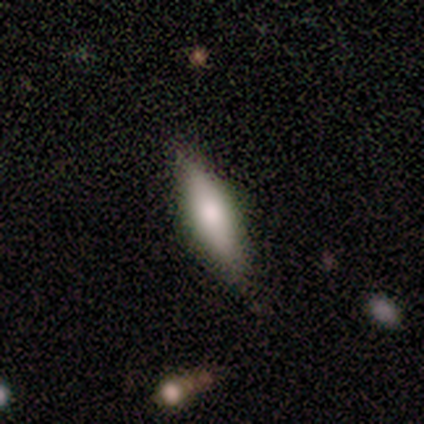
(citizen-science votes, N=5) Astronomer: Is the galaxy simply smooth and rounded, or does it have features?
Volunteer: smooth — 80%.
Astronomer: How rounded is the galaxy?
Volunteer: cigar-shaped — 75%.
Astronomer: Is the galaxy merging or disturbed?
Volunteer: none — 60% (runner-up: minor disturbance, 40%).